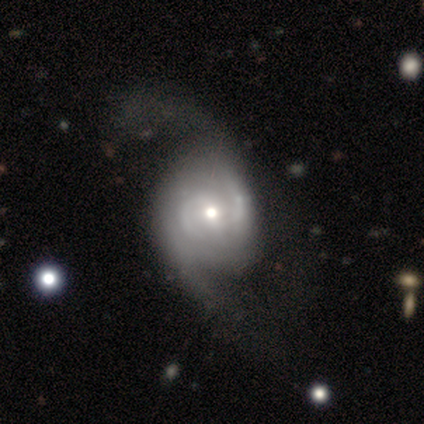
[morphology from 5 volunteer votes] smooth-or-featured: featured or disk: 100% | smooth: 0% | star or artifact: 0%
  disk-edge-on: no: 100% | yes: 0%
    bar: no: 60% | weak: 40% | strong: 0%
    has-spiral-arms: yes: 100% | no: 0%
      spiral-winding: loose: 60% | tight: 20% | medium: 20%
      spiral-arm-count: 2: 100% | 1: 0% | 3: 0% | 4: 0% | more than 4: 0% | can't tell: 0%
    bulge-size: small: 60% | moderate: 40% | dominant: 0% | large: 0% | none: 0%
  merging: minor disturbance: 60% | none: 20% | major disturbance: 20% | merger: 0%